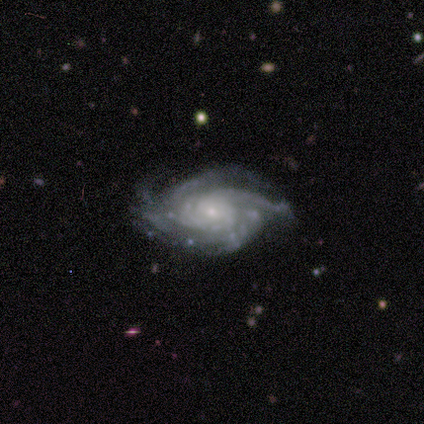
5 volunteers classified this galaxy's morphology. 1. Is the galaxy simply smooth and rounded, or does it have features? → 100% featured or disk, 0% smooth, 0% star or artifact.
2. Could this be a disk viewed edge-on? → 100% no, 0% yes.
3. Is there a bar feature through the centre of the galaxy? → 100% no, 0% strong, 0% weak.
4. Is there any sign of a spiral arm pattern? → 100% yes, 0% no.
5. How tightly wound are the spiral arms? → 60% tight, 40% medium, 0% loose.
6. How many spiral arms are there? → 40% 4 (tied), 40% more than 4 (tied), 20% 3, 0% 1, 0% 2, 0% can't tell.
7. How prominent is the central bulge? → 100% small, 0% dominant, 0% large, 0% moderate, 0% none.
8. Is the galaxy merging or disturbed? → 40% none (tied), 40% minor disturbance (tied), 20% major disturbance, 0% merger.